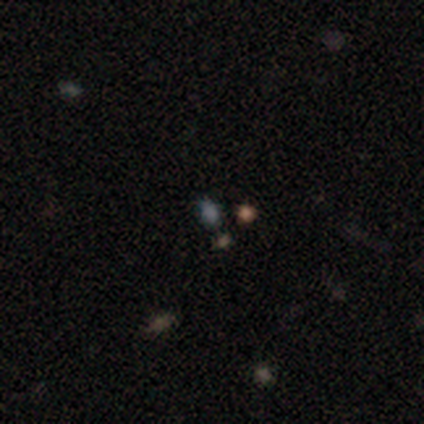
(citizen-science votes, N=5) Overall: star or artifact (80%).